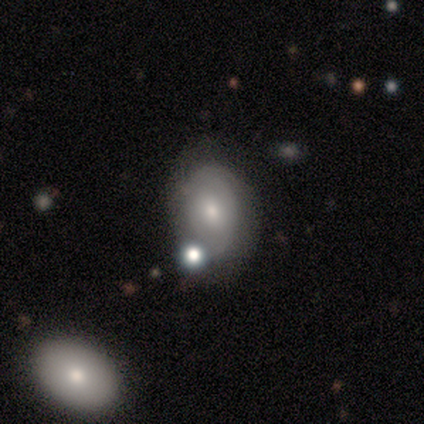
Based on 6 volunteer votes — Smooth or featured: featured or disk — 67% (smooth — 33%)
Edge-on disk: no — 100%
Bar: weak — 50% (tied with no — 50%)
Spiral arms: no — 75% (yes — 25%)
Bulge size: moderate — 50% (tied with small — 50%)
Merging: none — 50% (minor disturbance — 17%)